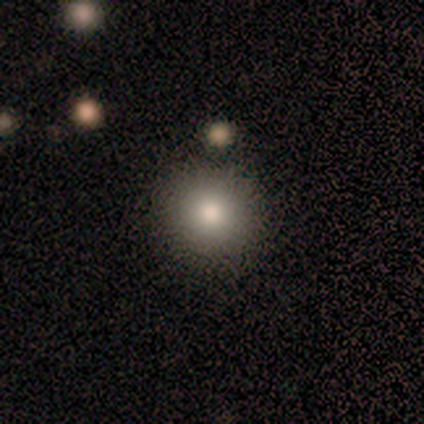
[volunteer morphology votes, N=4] Smooth or featured? smooth (100%)
How rounded? round (100%)
Merging? none (100%)